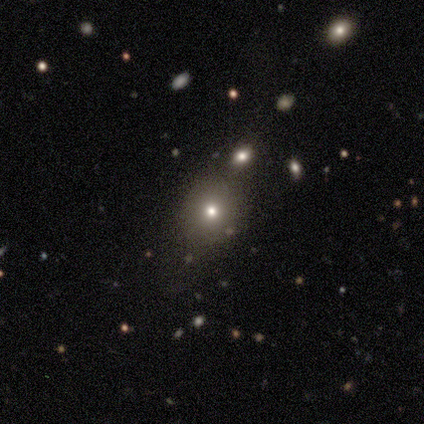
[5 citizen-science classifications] This is clearly a smooth galaxy (80%). How rounded: possibly round (50%, tied with in between). Merging: possibly none (50%).